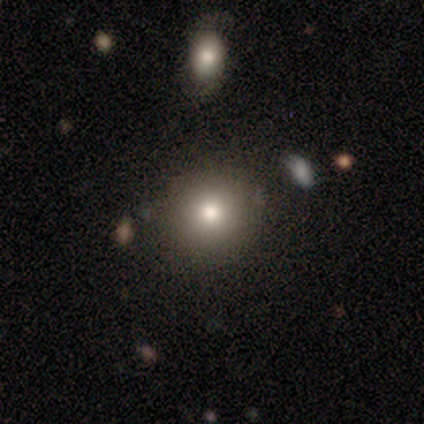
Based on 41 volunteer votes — Smooth or featured? smooth (76%)
How rounded? round (90%)
Merging? none (86%)